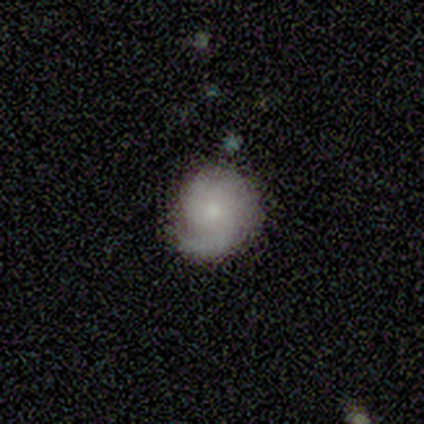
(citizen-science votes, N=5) Overall: featured or disk (80%). Edge-on disk: no (100%). Bar: no (100%). Spiral arms: yes (100%). Spiral arm count: 1 (75%). Spiral winding: tight (50%, tied with medium). Bulge size: small (75%). Merging: minor disturbance (60%; none 40%).